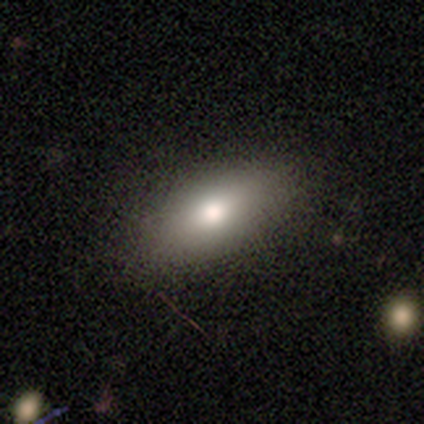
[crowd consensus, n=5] A smooth galaxy with no disk features (100%) that is in between round and cigar-shaped (100%). Merging: none (100%).